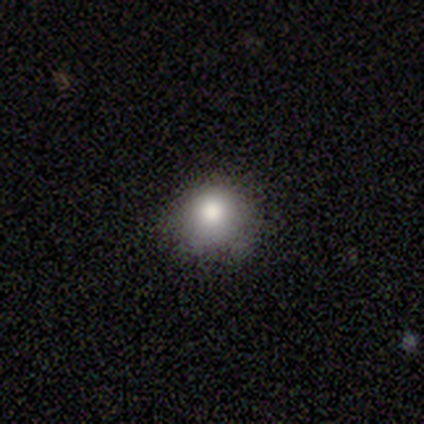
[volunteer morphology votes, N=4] A smooth galaxy with no disk features (75%) that is round (100%).

Vote fractions:
- Smooth or featured? smooth: 75% / featured or disk: 25% / star or artifact: 0%
- How rounded? round: 100% / in between: 0% / cigar-shaped: 0%
- Merging? none: 100% / minor disturbance: 0% / major disturbance: 0% / merger: 0%